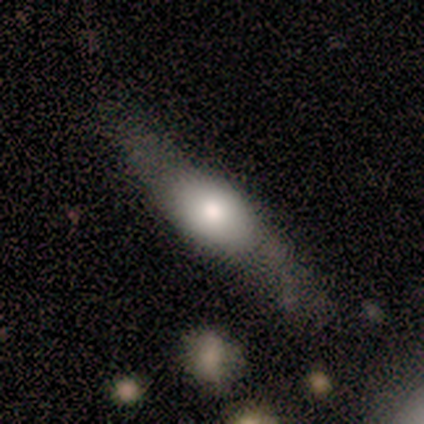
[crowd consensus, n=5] Smooth or featured?
  - smooth: 60% *
  - featured or disk: 20%
  - star or artifact: 20%
How rounded?
  - cigar-shaped: 100% *
  - round: 0%
  - in between: 0%
Merging?
  - none: 100% *
  - minor disturbance: 0%
  - major disturbance: 0%
  - merger: 0%